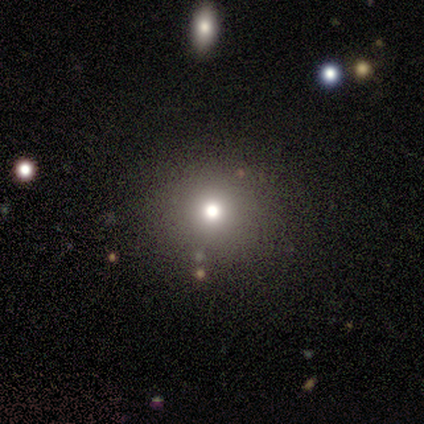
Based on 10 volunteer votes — Overall: smooth (60%; featured or disk 20%). How rounded: round (83%). Merging: none (100%).